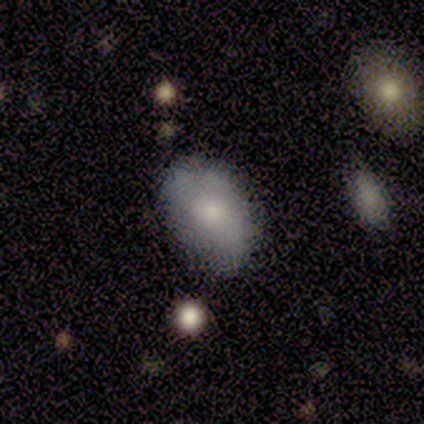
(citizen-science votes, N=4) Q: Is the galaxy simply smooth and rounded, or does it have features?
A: smooth — 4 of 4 (100%).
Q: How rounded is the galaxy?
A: in between — 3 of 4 (75%).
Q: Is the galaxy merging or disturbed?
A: none — 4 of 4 (100%).